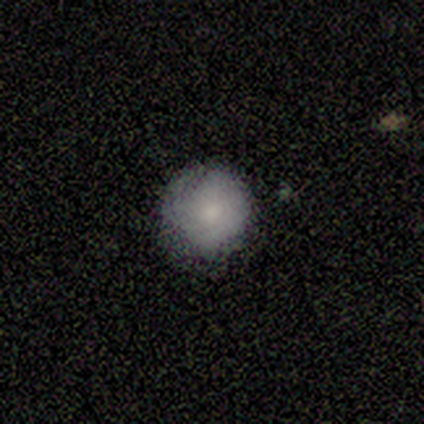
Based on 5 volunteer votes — Smooth or featured: smooth — 80% (featured or disk — 20%)
How rounded: round — 100%
Merging: none — 100%